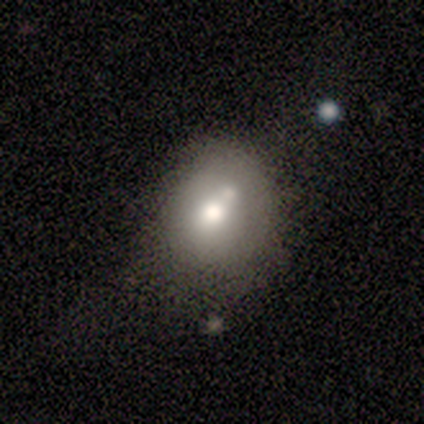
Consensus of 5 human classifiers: This appears to be a smooth galaxy with no disk features (60%) that is in between round and cigar-shaped (67%). Merging: none (40%).